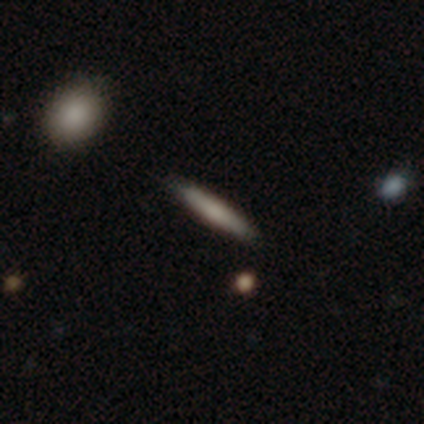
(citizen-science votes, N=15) Smooth or featured: smooth — 67% (featured or disk — 27%)
How rounded: cigar-shaped — 90% (in between — 10%)
Merging: none — 93% (minor disturbance — 7%)